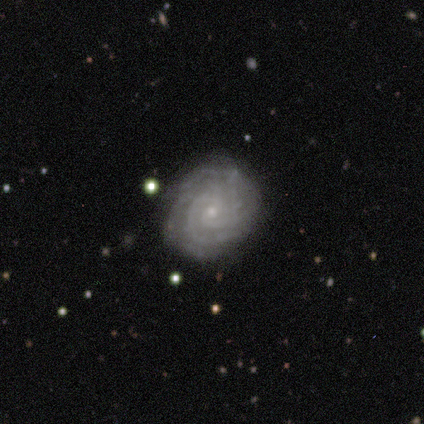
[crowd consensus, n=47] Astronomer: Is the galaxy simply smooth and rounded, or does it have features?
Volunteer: featured or disk — 89%.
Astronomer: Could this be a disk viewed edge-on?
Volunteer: no — 95%.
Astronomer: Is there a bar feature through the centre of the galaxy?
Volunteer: no — 68%.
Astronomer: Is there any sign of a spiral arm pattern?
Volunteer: yes — 100%.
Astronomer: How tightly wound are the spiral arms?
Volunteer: tight — 85%.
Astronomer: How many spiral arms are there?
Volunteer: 2 — 25%, tied with 3 at 25%.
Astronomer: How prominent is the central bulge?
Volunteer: small — 72%.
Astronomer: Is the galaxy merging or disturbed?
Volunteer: none — 68%.